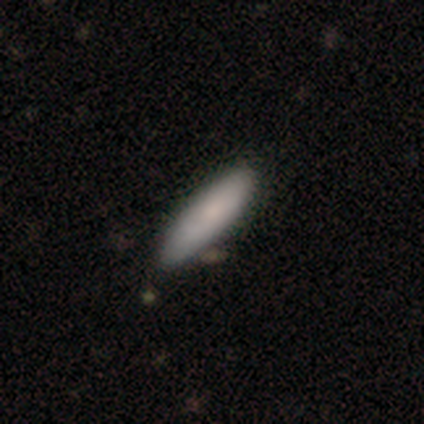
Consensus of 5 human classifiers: Smooth or featured?
  - smooth: 60% *
  - featured or disk: 20%
  - star or artifact: 20%
How rounded?
  - cigar-shaped: 67% *
  - in between: 33%
  - round: 0%
Merging?
  - none: 75% *
  - minor disturbance: 25%
  - major disturbance: 0%
  - merger: 0%